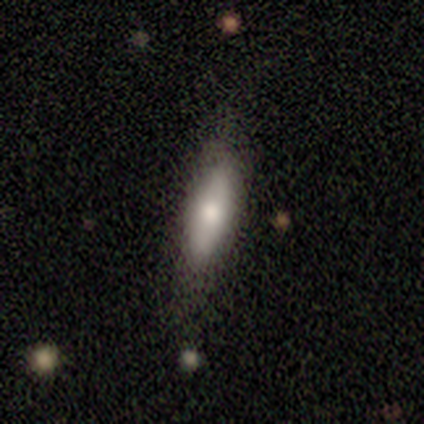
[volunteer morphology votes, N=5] smooth-or-featured: smooth: 80% | featured or disk: 20% | star or artifact: 0%
  how-rounded: in between: 50% (tied) | cigar-shaped: 50% (tied) | round: 0%
  merging: none: 80% | minor disturbance: 20% | major disturbance: 0% | merger: 0%